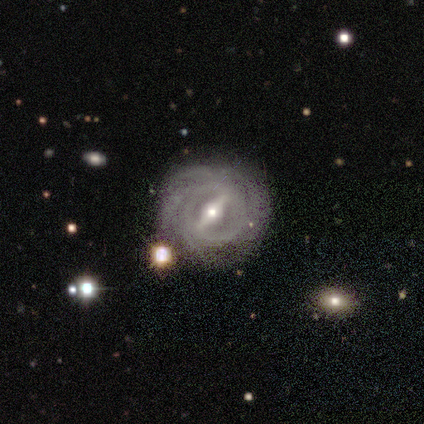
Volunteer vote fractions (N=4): Smooth or featured?
  - featured or disk: 100% *
  - smooth: 0%
  - star or artifact: 0%
Edge-on disk?
  - no: 100% *
  - yes: 0%
Bar?
  - strong: 50% * (tied)
  - weak: 50% * (tied)
  - no: 0%
Spiral arms?
  - yes: 100% *
  - no: 0%
Spiral winding?
  - tight: 100% *
  - medium: 0%
  - loose: 0%
Spiral arm count?
  - 4: 50% *
  - 2: 25%
  - 3: 25%
  - 1: 0%
  - more than 4: 0%
  - can't tell: 0%
Bulge size?
  - small: 75% *
  - moderate: 25%
  - dominant: 0%
  - large: 0%
  - none: 0%
Merging?
  - none: 75% *
  - merger: 25%
  - minor disturbance: 0%
  - major disturbance: 0%